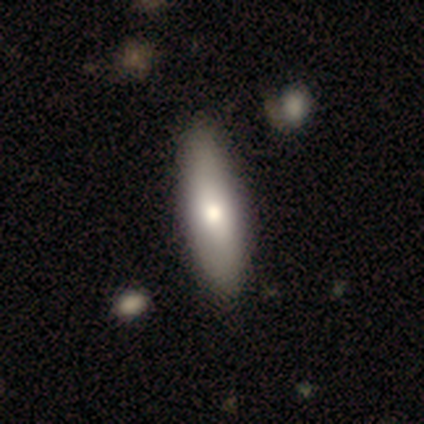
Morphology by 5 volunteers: smooth 100%, featured or disk 0%, star or artifact 0%. Down the decision tree: how rounded — in between (60%); merging — none (100%).